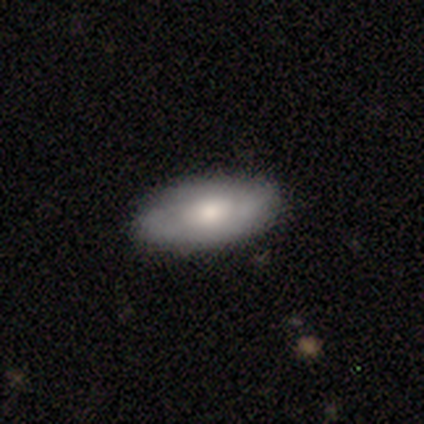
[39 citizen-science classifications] Q: Smooth or featured?
A: smooth (64%); runner-up: featured or disk (31%)
Q: How rounded?
A: in between (88%); runner-up: cigar-shaped (8%)
Q: Merging?
A: none (86%); runner-up: minor disturbance (11%)